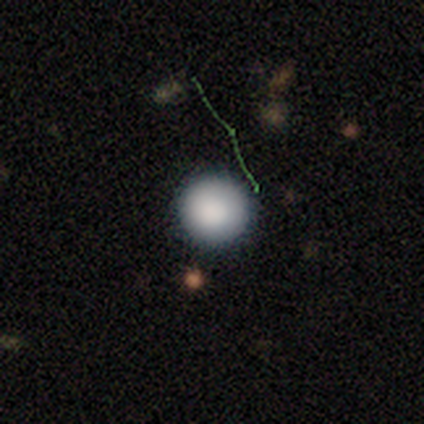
smooth 78%, featured or disk 14%, star or artifact 8%. Down the decision tree: how rounded — round (97%); merging — none (88%).